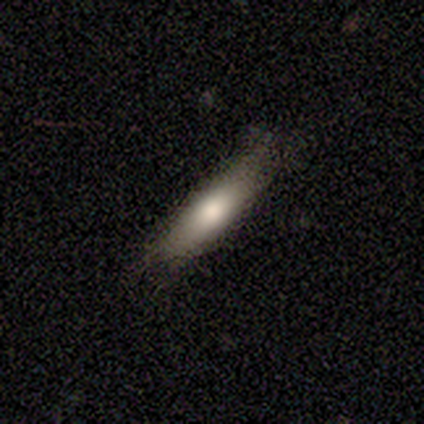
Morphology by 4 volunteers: This appears to be a smooth galaxy with no disk features (100%) that is in between round and cigar-shaped (50%, tied with cigar-shaped). Merging: minor disturbance (75%).